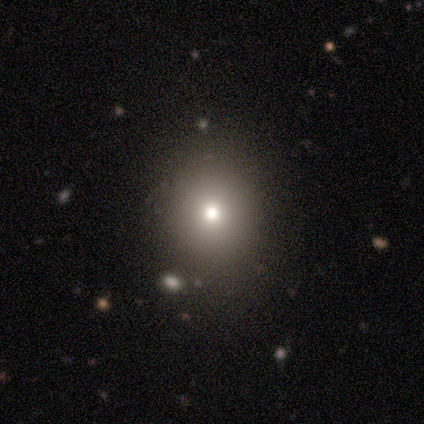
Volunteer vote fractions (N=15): Q: Smooth or featured?
A: smooth (80%); runner-up: star or artifact (13%)
Q: How rounded?
A: round (83%); runner-up: in between (17%)
Q: Merging?
A: none (92%); runner-up: major disturbance (8%)